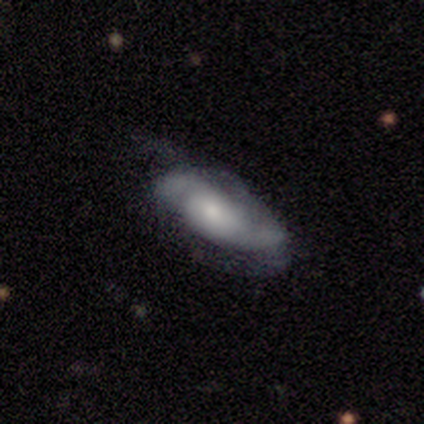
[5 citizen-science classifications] A featured or disk galaxy (100%) with no bar (100%), loose (60%) spiral arms (100%) and a small central bulge (100%).

Vote fractions:
- Smooth or featured? featured or disk: 100% / smooth: 0% / star or artifact: 0%
- Edge-on disk? no: 100% / yes: 0%
- Bar? no: 100% / strong: 0% / weak: 0%
- Spiral arms? yes: 100% / no: 0%
- Spiral winding? loose: 60% / tight: 20% / medium: 20%
- Spiral arm count? can't tell: 60% / 2: 40% / 1: 0% / 3: 0% / 4: 0% / more than 4: 0%
- Bulge size? small: 100% / dominant: 0% / large: 0% / moderate: 0% / none: 0%
- Merging? none: 80% / minor disturbance: 20% / major disturbance: 0% / merger: 0%